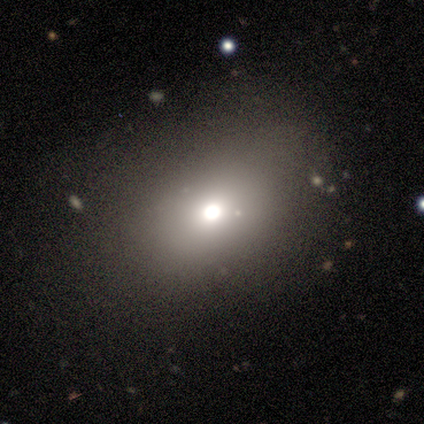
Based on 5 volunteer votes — smooth-or-featured: smooth: 60% | featured or disk: 20% | star or artifact: 20%
  how-rounded: in between: 100% | round: 0% | cigar-shaped: 0%
  merging: none: 50% (tied) | minor disturbance: 50% (tied) | major disturbance: 0% | merger: 0%